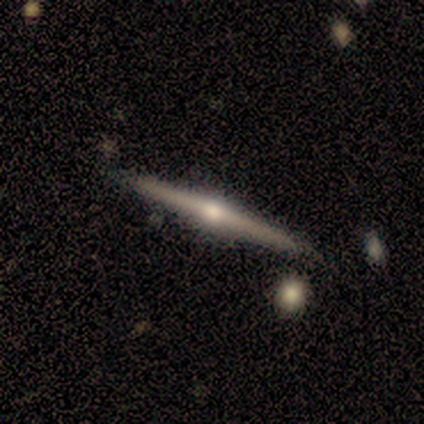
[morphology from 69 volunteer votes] This appears to be a featured or disk galaxy (84%) viewed edge-on (100%) with a rounded central bulge (95%). Merging: none (90%).